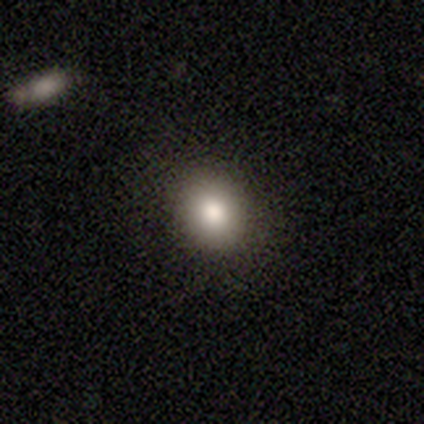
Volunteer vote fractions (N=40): smooth-or-featured: smooth: 78% | star or artifact: 15% | featured or disk: 8%
  how-rounded: round: 77% | in between: 19% | cigar-shaped: 3%
  merging: none: 91% | minor disturbance: 6% | merger: 3% | major disturbance: 0%